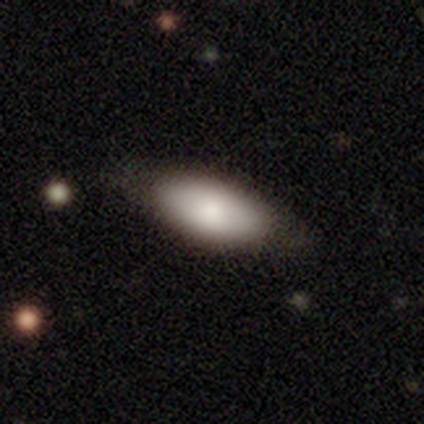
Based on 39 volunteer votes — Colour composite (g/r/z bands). It shows a smooth galaxy with no disk features (85%) that is in between round and cigar-shaped (91%). Merging: none (46%).